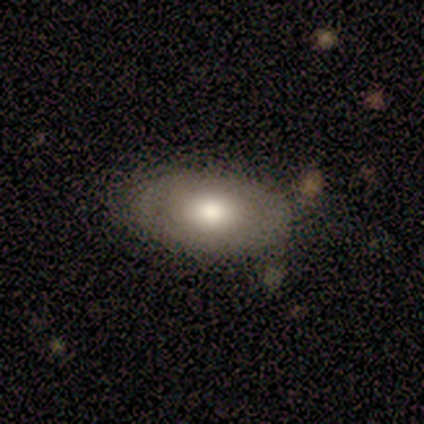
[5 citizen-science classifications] Overall: smooth (60%; featured or disk 40%). How rounded: in between (100%). Merging: minor disturbance (60%; none 40%).